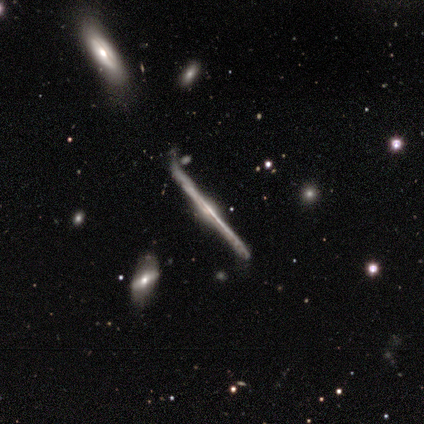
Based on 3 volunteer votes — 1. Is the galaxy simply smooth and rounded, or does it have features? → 67% featured or disk, 33% star or artifact, 0% smooth.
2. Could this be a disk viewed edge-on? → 100% yes, 0% no.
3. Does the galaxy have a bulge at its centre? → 50% none (tied), 50% rounded (tied), 0% boxy.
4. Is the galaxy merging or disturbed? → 100% none, 0% minor disturbance, 0% major disturbance, 0% merger.